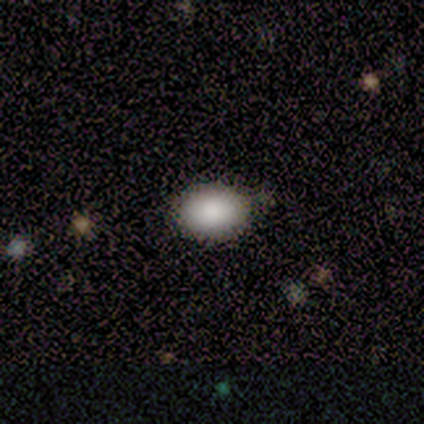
Q: Smooth or featured?
A: smooth (100%)
Q: How rounded?
A: round (60%); runner-up: in between (40%)
Q: Merging?
A: none (100%)